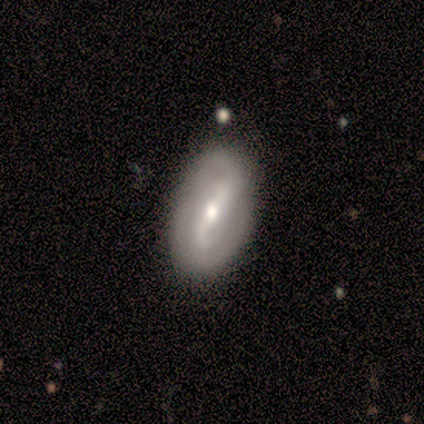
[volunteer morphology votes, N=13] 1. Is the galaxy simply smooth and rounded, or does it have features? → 77% featured or disk, 15% smooth, 8% star or artifact.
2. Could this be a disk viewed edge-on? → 100% no, 0% yes.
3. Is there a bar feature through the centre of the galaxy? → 90% strong, 10% weak, 0% no.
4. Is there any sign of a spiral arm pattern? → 80% yes, 20% no.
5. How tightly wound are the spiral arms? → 50% medium, 25% tight, 25% loose.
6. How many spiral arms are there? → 88% 2, 12% can't tell, 0% 1, 0% 3, 0% 4, 0% more than 4.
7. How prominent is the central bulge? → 70% moderate, 30% small, 0% dominant, 0% large, 0% none.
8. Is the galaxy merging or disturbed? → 83% none, 8% minor disturbance, 8% major disturbance, 0% merger.